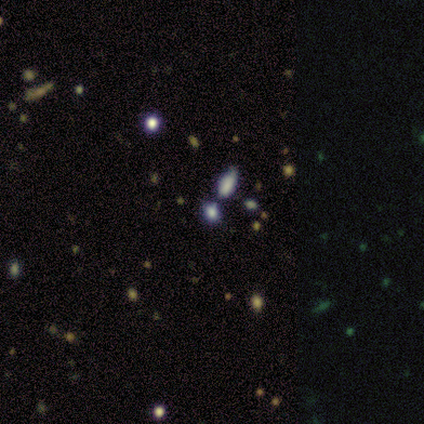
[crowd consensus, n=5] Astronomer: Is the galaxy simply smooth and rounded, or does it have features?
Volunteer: star or artifact — 80%.